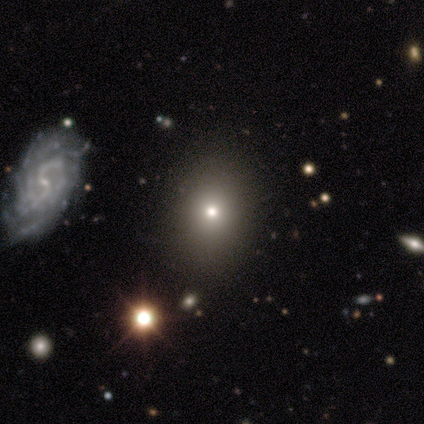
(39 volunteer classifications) Smooth or featured? 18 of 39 (46%) said smooth. How rounded? 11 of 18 (61%) said in between. Merging? 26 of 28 (93%) said none.